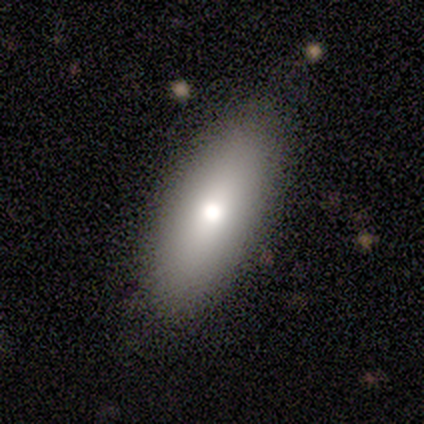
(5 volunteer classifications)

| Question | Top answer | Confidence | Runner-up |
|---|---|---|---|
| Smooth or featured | smooth | 80% | featured or disk (20%) |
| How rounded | in between | 100% | — |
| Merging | none | 80% | minor disturbance (20%) |